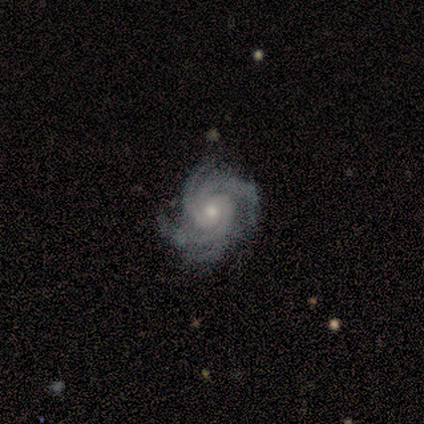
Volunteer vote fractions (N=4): smooth_or_featured: featured or disk (p=1.00)
disk_edge_on: no (p=1.00)
bar: no (p=1.00)
has_spiral_arms: yes (p=1.00)
spiral_winding: tight (p=0.50) [tied with: medium p=0.50]
spiral_arm_count: 4 (p=0.75) [alt: 3 p=0.25]
bulge_size: small (p=0.75) [alt: moderate p=0.25]
merging: none (p=1.00)